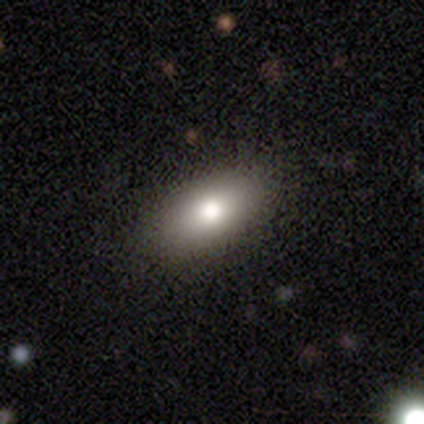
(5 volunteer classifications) smooth 100%, featured or disk 0%, star or artifact 0%. Down the decision tree: how rounded — in between (100%); merging — none (60%).